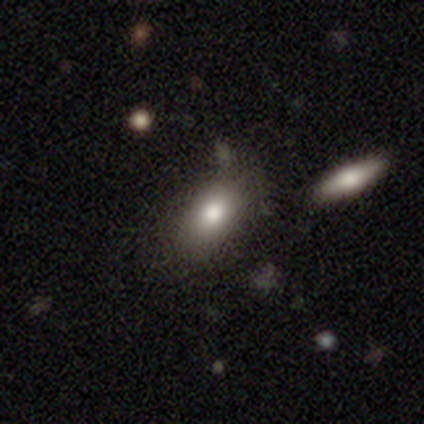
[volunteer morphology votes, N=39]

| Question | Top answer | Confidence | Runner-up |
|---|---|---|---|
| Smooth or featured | smooth | 72% | featured or disk (21%) |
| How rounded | in between | 82% | round (11%) |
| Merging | none | 67% | merger (17%) |